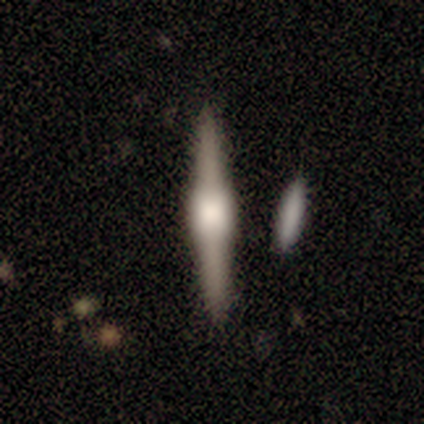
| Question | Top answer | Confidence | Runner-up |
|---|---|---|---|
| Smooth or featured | featured or disk | 83% | smooth (17%) |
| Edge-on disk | yes | 100% | — |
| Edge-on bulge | boxy | 60% | rounded (40%) |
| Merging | none | 83% | minor disturbance (17%) |